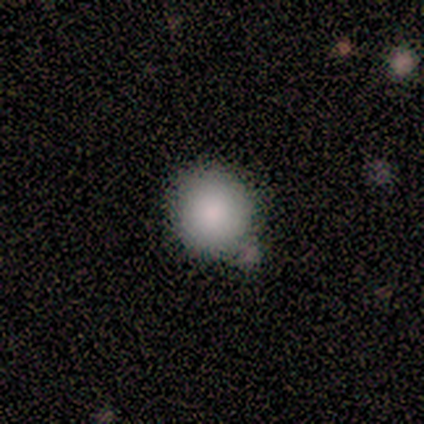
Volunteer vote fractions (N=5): Q: Smooth or featured?
A: smooth (100%)
Q: How rounded?
A: round (100%)
Q: Merging?
A: none (60%); runner-up: minor disturbance (40%)